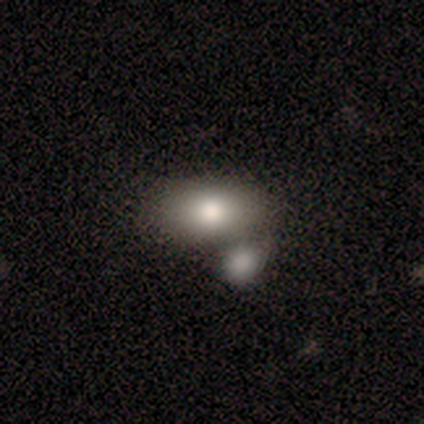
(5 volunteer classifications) This is clearly a smooth galaxy (80%). How rounded: clearly in between (100%). Merging: marginally minor disturbance (40%, tied with merger).